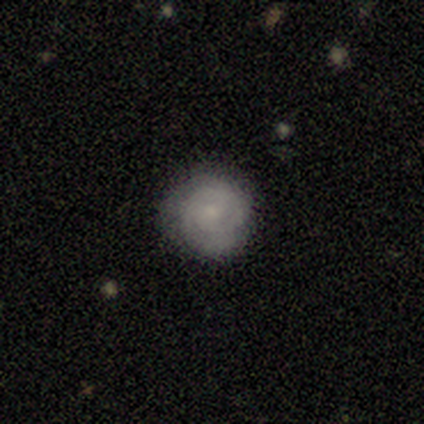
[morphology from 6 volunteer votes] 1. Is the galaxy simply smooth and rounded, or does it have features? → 83% smooth, 17% featured or disk, 0% star or artifact.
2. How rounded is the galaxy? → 100% round, 0% in between, 0% cigar-shaped.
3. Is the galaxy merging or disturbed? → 50% none (tied), 50% minor disturbance (tied), 0% major disturbance, 0% merger.